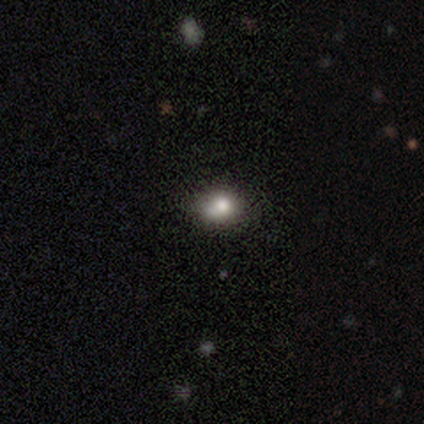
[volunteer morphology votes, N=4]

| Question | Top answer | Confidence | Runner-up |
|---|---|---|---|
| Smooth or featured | smooth | 100% | — |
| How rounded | round | 100% | — |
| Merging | none | 50% | minor disturbance (25%) |